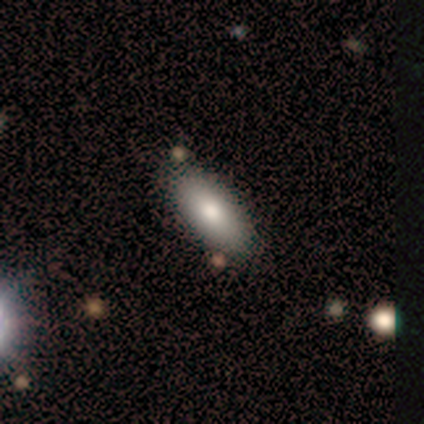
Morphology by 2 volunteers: Q: Smooth or featured?
A: smooth (100%)
Q: How rounded?
A: in between (100%)
Q: Merging?
A: none (100%)